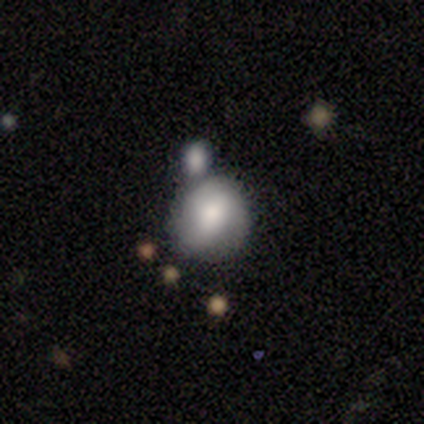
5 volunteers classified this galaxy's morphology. type=smooth (80%); roundness=round (100%); merging=merger (80%).